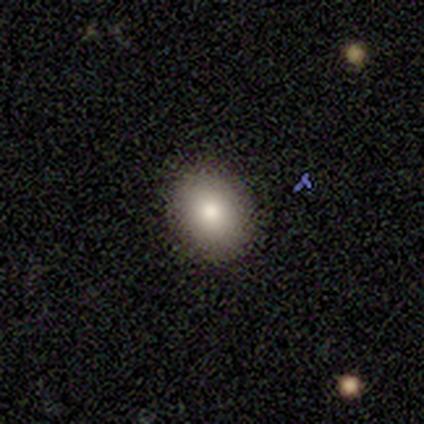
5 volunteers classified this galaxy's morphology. Smooth or featured?
  - smooth: 100% *
  - featured or disk: 0%
  - star or artifact: 0%
How rounded?
  - in between: 100% *
  - round: 0%
  - cigar-shaped: 0%
Merging?
  - none: 100% *
  - minor disturbance: 0%
  - major disturbance: 0%
  - merger: 0%